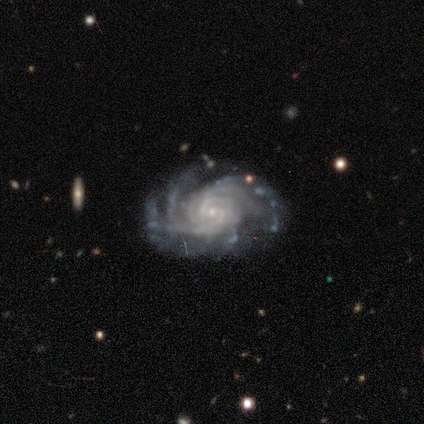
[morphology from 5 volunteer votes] Smooth or featured?
  - featured or disk: 100% *
  - smooth: 0%
  - star or artifact: 0%
Edge-on disk?
  - no: 100% *
  - yes: 0%
Bar?
  - no: 100% *
  - strong: 0%
  - weak: 0%
Spiral arms?
  - yes: 100% *
  - no: 0%
Spiral winding?
  - tight: 80% *
  - medium: 20%
  - loose: 0%
Spiral arm count?
  - 4: 40% * (tied)
  - more than 4: 40% * (tied)
  - 3: 20%
  - 1: 0%
  - 2: 0%
  - can't tell: 0%
Bulge size?
  - small: 100% *
  - dominant: 0%
  - large: 0%
  - moderate: 0%
  - none: 0%
Merging?
  - none: 60% *
  - minor disturbance: 40%
  - major disturbance: 0%
  - merger: 0%